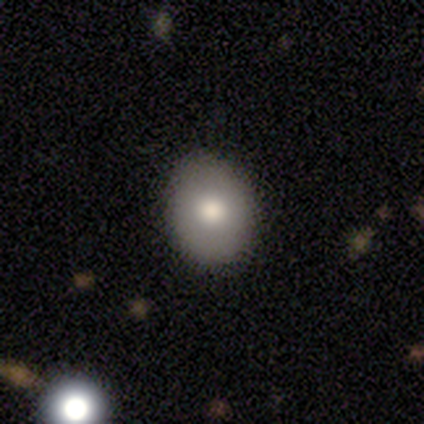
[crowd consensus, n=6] This appears to be a smooth galaxy with no disk features (33%, tied with featured or disk and star or artifact) that is round (50%, tied with in between). Merging: none (75%).